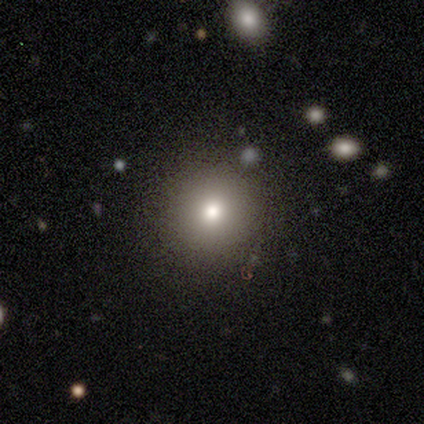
Morphology: type=smooth (72%); roundness=round (97%); merging=none (94%).